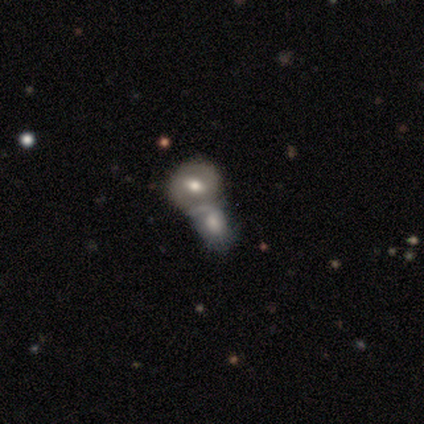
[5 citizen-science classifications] Volunteers were most divided on "smooth or featured": featured or disk: 60%, smooth: 40%, star or artifact: 0%. More confident: edge-on disk — no (100%); spiral arms — yes (100%); spiral arm count — 2 (100%); merging — merger (80%); bar — weak (67%); spiral winding — tight (67%); bulge size — moderate (67%).